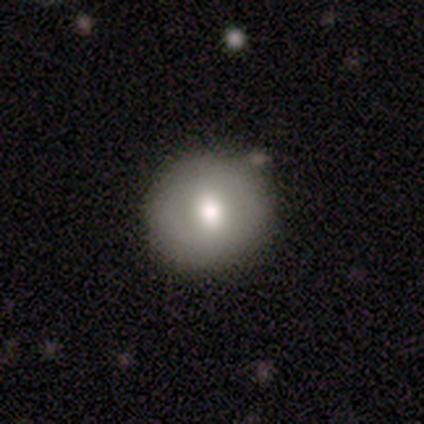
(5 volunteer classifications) smooth-or-featured: smooth: 80% | star or artifact: 20% | featured or disk: 0%
  how-rounded: round: 100% | in between: 0% | cigar-shaped: 0%
  merging: none: 100% | minor disturbance: 0% | major disturbance: 0% | merger: 0%